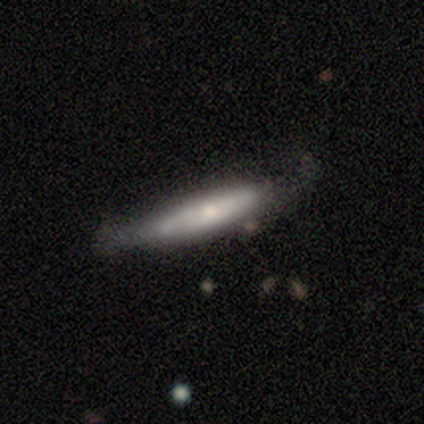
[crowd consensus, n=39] Volunteers were most divided on "edge-on bulge": rounded: 63%, none: 32%, boxy: 5%. More confident: edge-on disk — yes (73%); merging — none (69%); smooth or featured — featured or disk (67%).